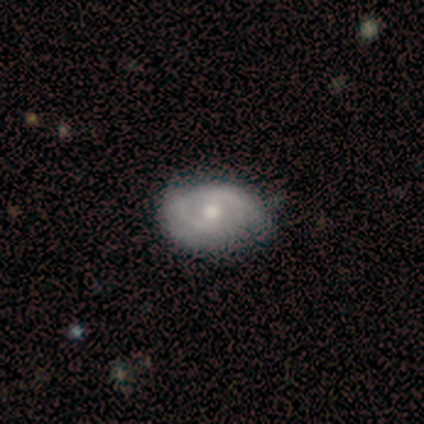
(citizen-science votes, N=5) A featured or disk galaxy (80%) with no bar (75%), 2 (100%) tight (50%, tied with medium) spiral arms (100%) and a moderate central bulge (50%).

Vote fractions:
- Smooth or featured? featured or disk: 80% / star or artifact: 20% / smooth: 0%
- Edge-on disk? no: 100% / yes: 0%
- Bar? no: 75% / weak: 25% / strong: 0%
- Spiral arms? yes: 100% / no: 0%
- Spiral winding? tight: 50% (tied) / medium: 50% (tied) / loose: 0%
- Spiral arm count? 2: 100% / 1: 0% / 3: 0% / 4: 0% / more than 4: 0% / can't tell: 0%
- Bulge size? moderate: 50% / large: 25% / small: 25% / dominant: 0% / none: 0%
- Merging? none: 75% / minor disturbance: 25% / major disturbance: 0% / merger: 0%